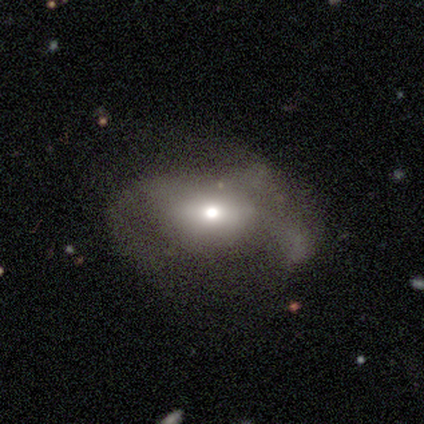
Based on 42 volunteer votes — Q: Smooth or featured?
A: featured or disk (64%); runner-up: smooth (24%)
Q: Edge-on disk?
A: no (96%); runner-up: yes (4%)
Q: Bar?
A: no (62%); runner-up: weak (27%)
Q: Spiral arms?
A: yes (50%); tied with: no (50%)
Q: Spiral winding?
A: medium (62%); runner-up: loose (31%)
Q: Spiral arm count?
A: can't tell (38%); runner-up: 2 (31%)
Q: Bulge size?
A: moderate (54%); runner-up: small (27%)
Q: Merging?
A: major disturbance (51%); runner-up: minor disturbance (27%)